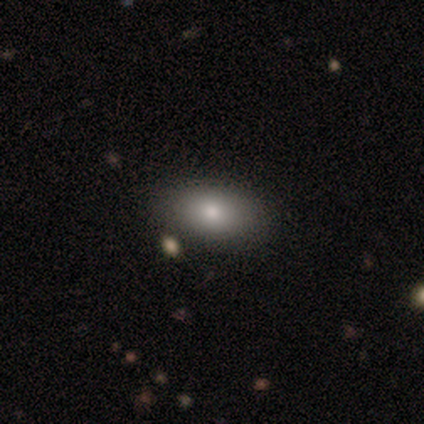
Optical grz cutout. It shows a smooth galaxy with no disk features (75%) that is in between round and cigar-shaped (100%). Merging: none (100%).